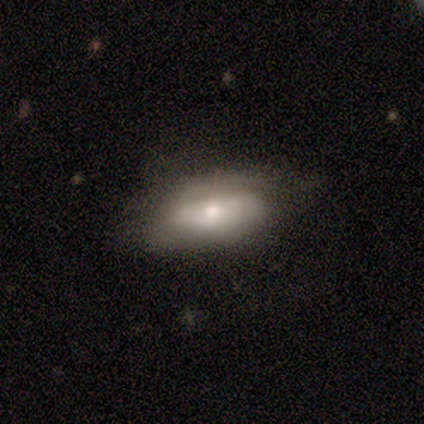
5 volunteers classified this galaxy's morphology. featured or disk 80%, smooth 20%, star or artifact 0%. Down the decision tree: edge-on disk — yes (50%, tied with no); edge-on bulge — rounded (100%); merging — none (100%).